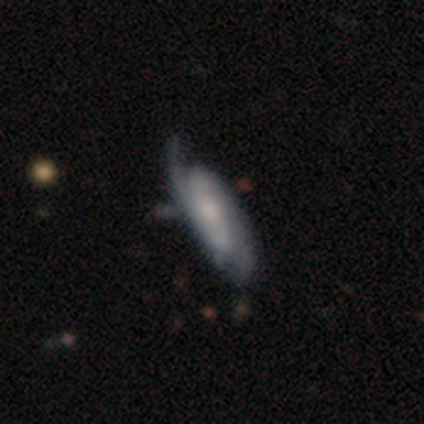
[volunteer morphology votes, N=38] Smooth or featured? 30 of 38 (79%) said featured or disk. Edge-on disk? 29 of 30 (97%) said no. Bar? 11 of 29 (38%) said no. Spiral arms? 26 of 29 (90%) said yes. Spiral winding? 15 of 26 (58%) said medium. Spiral arm count? 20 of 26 (77%) said 2. Bulge size? 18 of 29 (62%) said small. Merging? 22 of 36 (61%) said none.